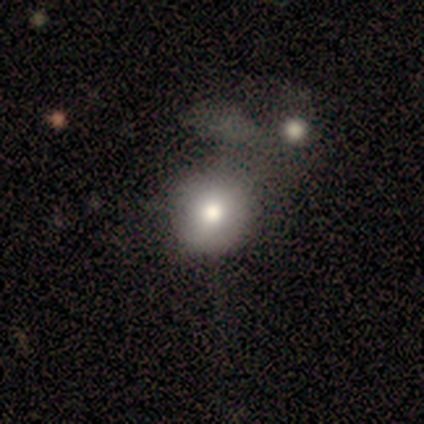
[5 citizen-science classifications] Volunteers were most divided on "merging" (2-way tie): none: 50%, merger: 50%, minor disturbance: 0%, major disturbance: 0%. More confident: how rounded — round (100%); smooth or featured — smooth (80%).